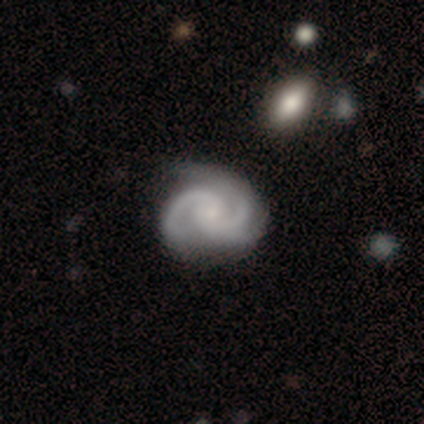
smooth_or_featured: featured or disk (p=0.60) [alt: smooth p=0.40]
disk_edge_on: no (p=1.00)
bar: no (p=0.67) [alt: weak p=0.33]
has_spiral_arms: yes (p=1.00)
spiral_winding: tight (p=0.67) [alt: loose p=0.33]
spiral_arm_count: 2 (p=0.67) [alt: 1 p=0.33]
bulge_size: small (p=1.00)
merging: none (p=0.60) [alt: major disturbance p=0.40]